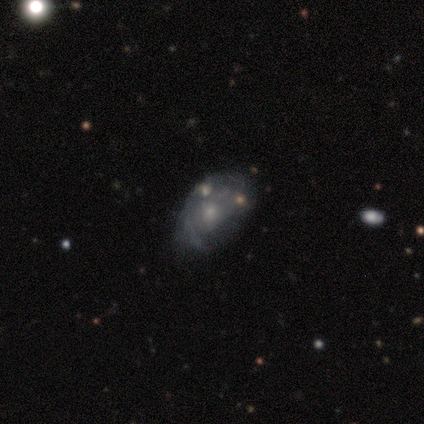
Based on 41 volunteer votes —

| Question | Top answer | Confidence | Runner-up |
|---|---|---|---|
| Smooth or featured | featured or disk | 63% | smooth (27%) |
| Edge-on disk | no | 96% | yes (4%) |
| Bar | no | 88% | weak (12%) |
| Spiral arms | no | 60% | yes (40%) |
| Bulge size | small | 60% | moderate (28%) |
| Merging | none | 49% | minor disturbance (24%) |